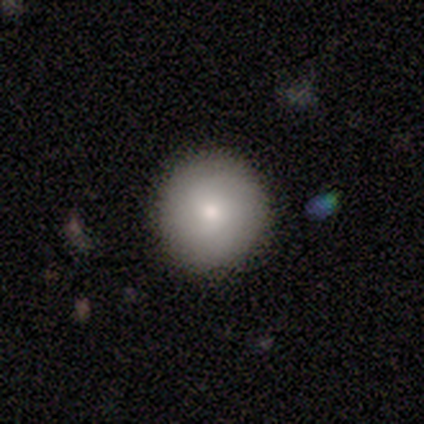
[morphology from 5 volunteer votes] A smooth galaxy with no disk features (60%) that is round (100%). Merging: none (100%).